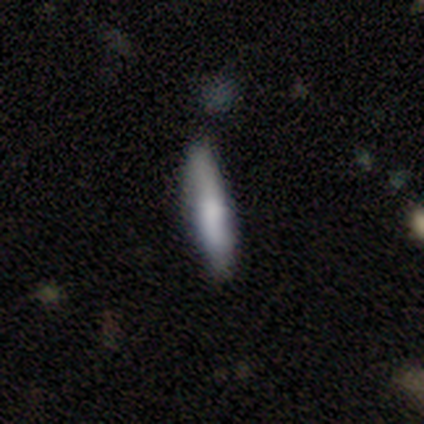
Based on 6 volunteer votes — smooth 83%, featured or disk 17%, star or artifact 0%. Down the decision tree: how rounded — cigar-shaped (80%); merging — none (67%).